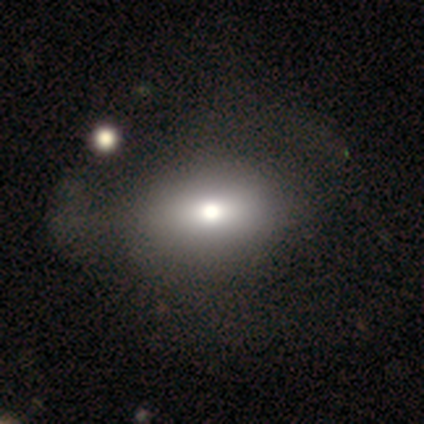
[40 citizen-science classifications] Overall: smooth (60%; featured or disk 25%). How rounded: in between (58%; round 33%). Merging: none (35%; major disturbance 32%).